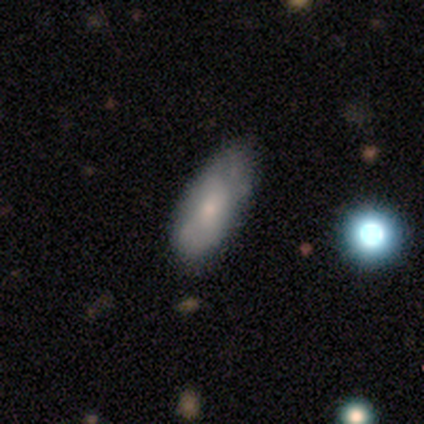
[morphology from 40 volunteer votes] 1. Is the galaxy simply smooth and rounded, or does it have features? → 65% smooth, 30% featured or disk, 5% star or artifact.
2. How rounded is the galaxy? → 85% in between, 12% cigar-shaped, 4% round.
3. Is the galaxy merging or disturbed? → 58% none, 34% minor disturbance, 8% major disturbance, 0% merger.